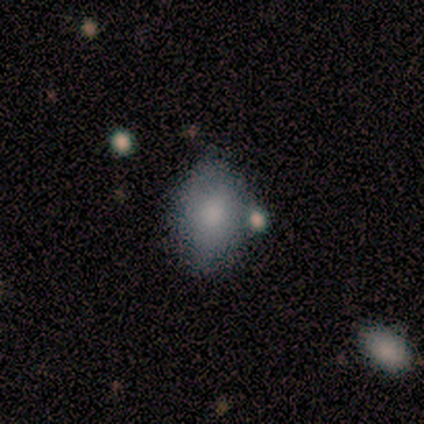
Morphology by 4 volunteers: type=smooth (50%, tied with featured or disk); roundness=in between (100%); merging=minor disturbance (50%, tied with merger).